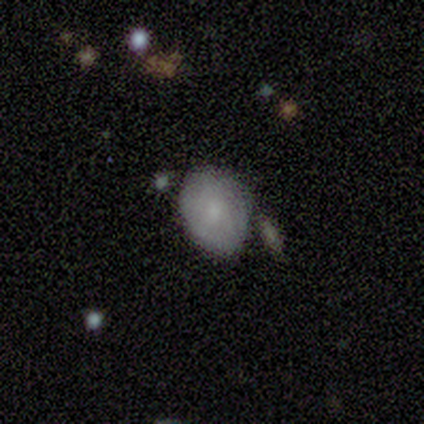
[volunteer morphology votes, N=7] smooth-or-featured: smooth: 71% | featured or disk: 29% | star or artifact: 0%
  how-rounded: in between: 80% | round: 20% | cigar-shaped: 0%
  merging: minor disturbance: 57% | none: 43% | major disturbance: 0% | merger: 0%